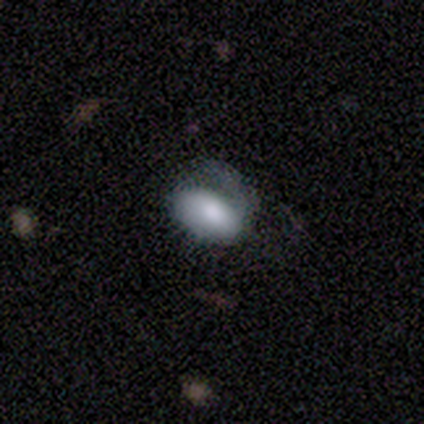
Morphology: type=smooth (40%, tied with featured or disk); roundness=in between (100%); merging=major disturbance (75%).